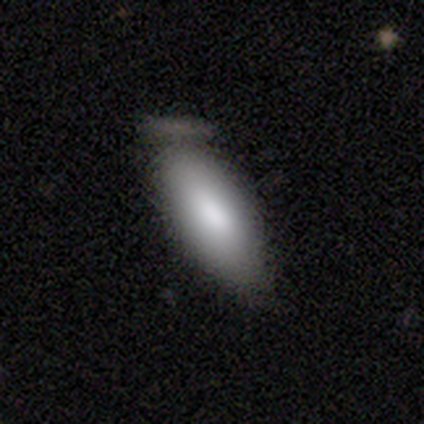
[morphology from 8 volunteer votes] This is clearly a smooth galaxy (100%). How rounded: clearly in between (88%). Merging: likely none (75%).